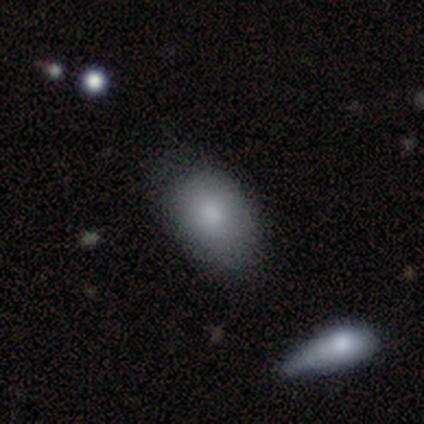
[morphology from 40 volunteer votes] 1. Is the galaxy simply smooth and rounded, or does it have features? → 82% smooth, 12% featured or disk, 5% star or artifact.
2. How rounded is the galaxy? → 88% in between, 12% round, 0% cigar-shaped.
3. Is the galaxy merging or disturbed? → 58% none, 13% minor disturbance, 5% merger, 3% major disturbance.